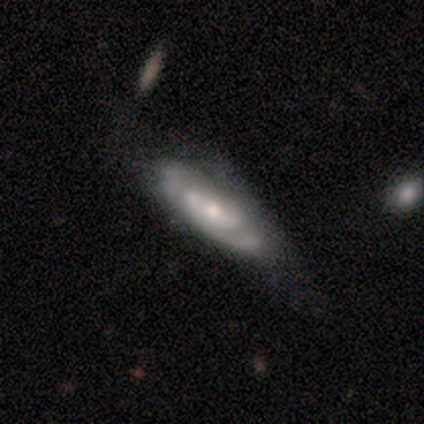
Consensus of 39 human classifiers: Volunteers were most divided on "spiral arm count": 2: 47%, can't tell: 42%, 3: 11%, 1: 0%, 4: 0%, more than 4: 0%. Remaining: edge-on disk — no (90%); smooth or featured — featured or disk (79%); spiral winding — tight (68%); spiral arms — yes (68%); bar — no (64%); bulge size — small (46%); merging — minor disturbance (44%).